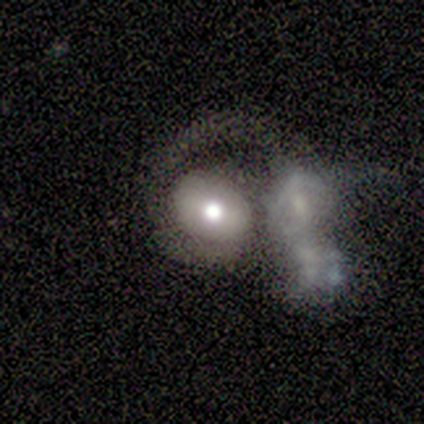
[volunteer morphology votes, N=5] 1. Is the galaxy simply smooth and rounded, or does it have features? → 80% smooth, 20% featured or disk, 0% star or artifact.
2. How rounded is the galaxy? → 50% round (tied), 50% in between (tied), 0% cigar-shaped.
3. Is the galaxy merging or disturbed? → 60% merger, 20% none, 20% major disturbance, 0% minor disturbance.